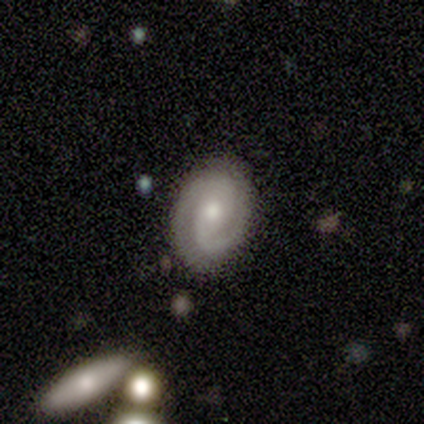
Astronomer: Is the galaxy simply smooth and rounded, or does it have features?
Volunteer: featured or disk — 80%.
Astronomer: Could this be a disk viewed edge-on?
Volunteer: no — 75%.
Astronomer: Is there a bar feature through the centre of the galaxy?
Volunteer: no — 100%.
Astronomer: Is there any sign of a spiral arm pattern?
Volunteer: yes — 100%.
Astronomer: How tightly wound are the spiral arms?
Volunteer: medium — 67%.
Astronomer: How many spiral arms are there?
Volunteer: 2 — 100%.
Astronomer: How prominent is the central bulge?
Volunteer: moderate — 67%.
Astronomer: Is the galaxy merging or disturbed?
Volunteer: none — 60% (runner-up: major disturbance, 40%).